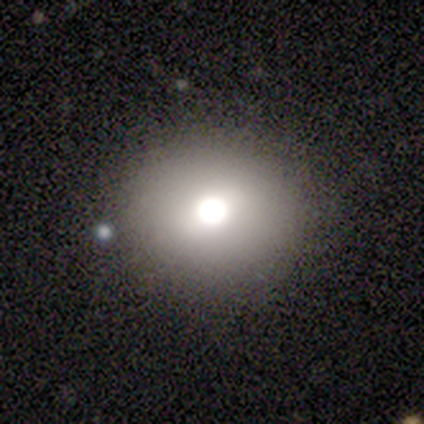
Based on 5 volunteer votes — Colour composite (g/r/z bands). It shows a star or artifact, not a galaxy (60%).